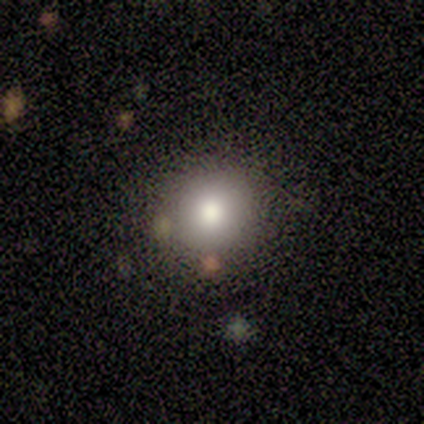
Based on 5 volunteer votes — A smooth galaxy with no disk features (40%, tied with star or artifact) that is round (100%).

Vote fractions:
- Smooth or featured? smooth: 40% (tied) / star or artifact: 40% (tied) / featured or disk: 20%
- How rounded? round: 100% / in between: 0% / cigar-shaped: 0%
- Merging? none: 100% / minor disturbance: 0% / major disturbance: 0% / merger: 0%